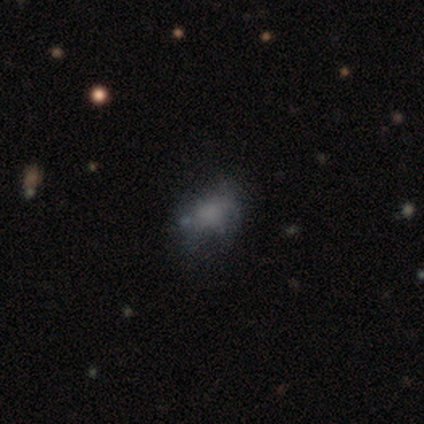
A featured or disk galaxy (75%) with a weak bar (50%, tied with no), tight (100%) spiral arms (50%, tied with no) and a dominant central bulge (50%, tied with none).

Vote fractions:
- Smooth or featured? featured or disk: 75% / smooth: 25% / star or artifact: 0%
- Edge-on disk? no: 67% / yes: 33%
- Bar? weak: 50% (tied) / no: 50% (tied) / strong: 0%
- Spiral arms? yes: 50% (tied) / no: 50% (tied)
- Spiral winding? tight: 100% / medium: 0% / loose: 0%
- Spiral arm count? can't tell: 100% / 1: 0% / 2: 0% / 3: 0% / 4: 0% / more than 4: 0%
- Bulge size? dominant: 50% (tied) / none: 50% (tied) / large: 0% / moderate: 0% / small: 0%
- Merging? none: 50% (tied) / minor disturbance: 50% (tied) / major disturbance: 0% / merger: 0%